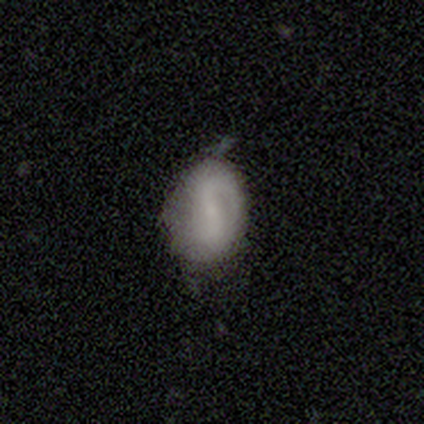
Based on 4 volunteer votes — A featured or disk galaxy (75%) with a weak bar (100%), 1 (33%, tied with 2 and can't tell) tight (33%, tied with medium and loose) spiral arms (100%) and a small central bulge (67%). Merging: minor disturbance (50%).